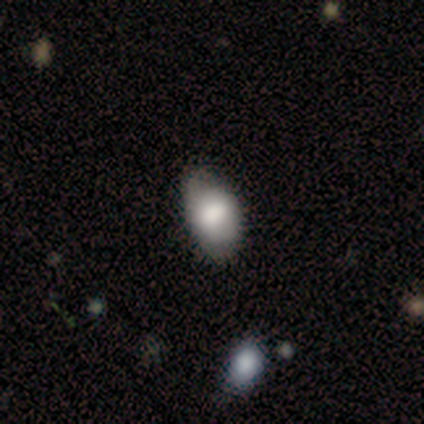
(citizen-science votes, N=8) This is clearly a smooth galaxy (88%). How rounded: clearly in between (86%). Merging: possibly none (50%).